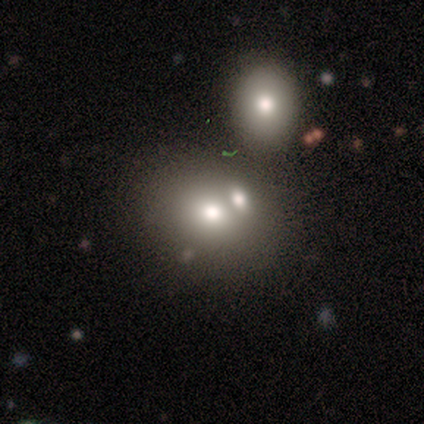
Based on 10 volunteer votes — Q: Smooth or featured?
A: smooth (60%); runner-up: featured or disk (30%)
Q: How rounded?
A: in between (83%); runner-up: round (17%)
Q: Merging?
A: merger (67%); runner-up: none (22%)